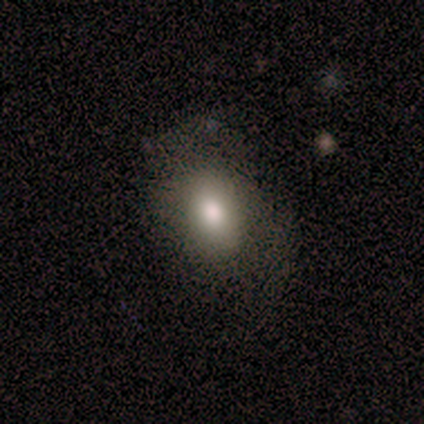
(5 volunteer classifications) Smooth or featured? 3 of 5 (60%) said smooth. How rounded? 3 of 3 (100%) said in between. Merging? 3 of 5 (60%) said none.